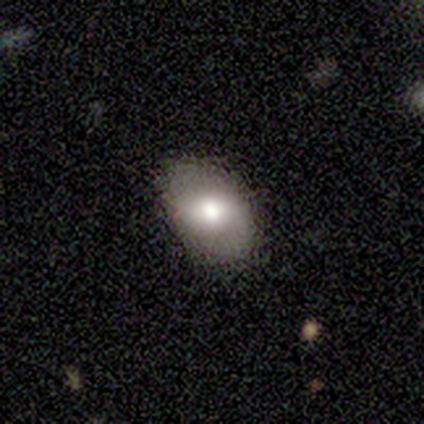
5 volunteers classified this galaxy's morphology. Q: Smooth or featured?
A: smooth (60%); runner-up: featured or disk (20%)
Q: How rounded?
A: in between (67%); runner-up: round (33%)
Q: Merging?
A: none (100%)